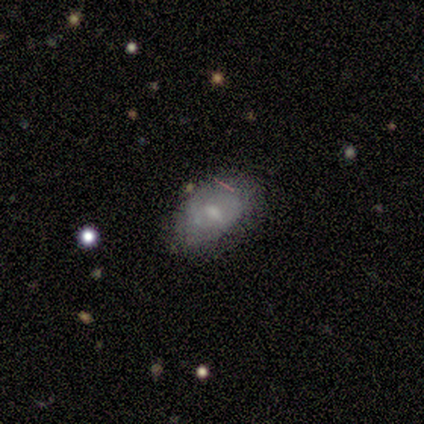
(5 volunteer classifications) smooth 60%, featured or disk 20%, star or artifact 20%. Down the decision tree: how rounded — in between (100%); merging — none (50%, tied with minor disturbance).